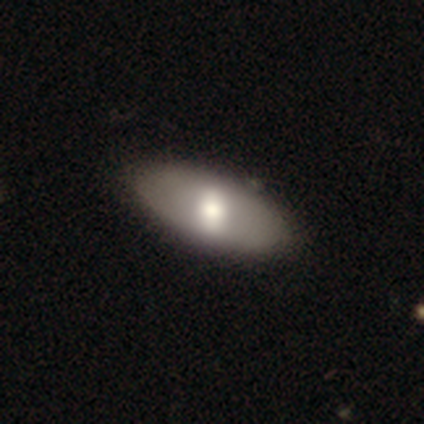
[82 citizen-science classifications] smooth-or-featured: smooth: 56% | featured or disk: 39% | star or artifact: 5%
  how-rounded: in between: 91% | cigar-shaped: 7% | round: 2%
  merging: none: 41% | minor disturbance: 8% | major disturbance: 1% | merger: 1%